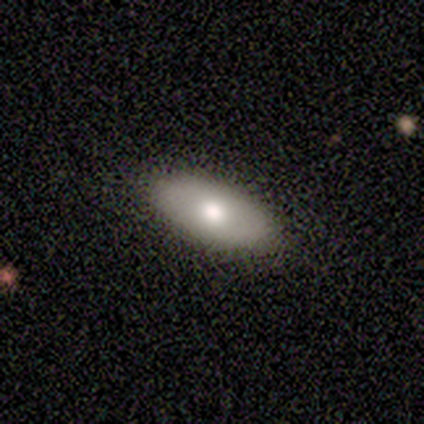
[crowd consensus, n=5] A smooth galaxy with no disk features (80%) that is in between round and cigar-shaped (100%). Merging: none (100%).